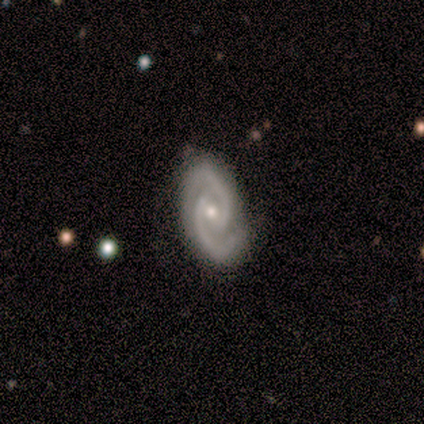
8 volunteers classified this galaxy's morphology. smooth_or_featured: featured or disk (p=1.00)
disk_edge_on: no (p=1.00)
bar: weak (p=0.38) [tied with: no p=0.38]
has_spiral_arms: yes (p=1.00)
spiral_winding: tight (p=0.50) [tied with: medium p=0.50]
spiral_arm_count: 2 (p=1.00)
bulge_size: small (p=0.62) [alt: moderate p=0.38]
merging: none (p=0.62) [alt: minor disturbance p=0.38]